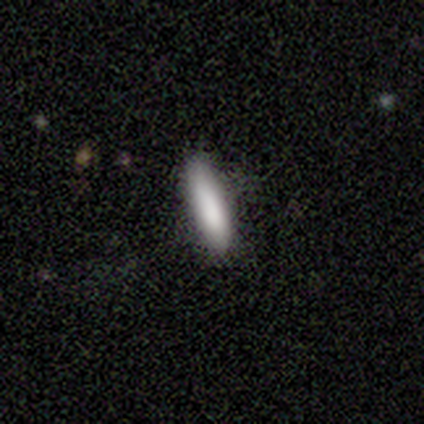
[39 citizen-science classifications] Morphology: type=smooth (79%); roundness=cigar-shaped (65%); merging=none (68%).